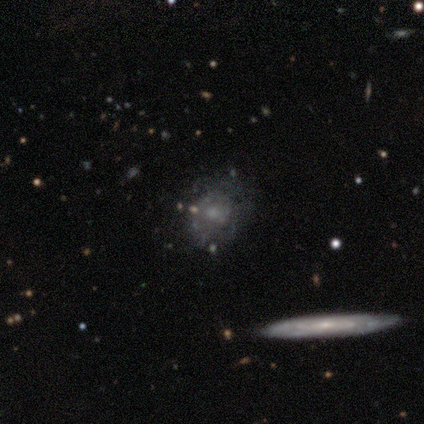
smooth_or_featured: featured or disk (p=1.00)
disk_edge_on: no (p=0.60) [alt: yes p=0.40]
bar: no (p=1.00)
has_spiral_arms: no (p=1.00)
bulge_size: small (p=1.00)
merging: none (p=0.60) [alt: minor disturbance p=0.20]